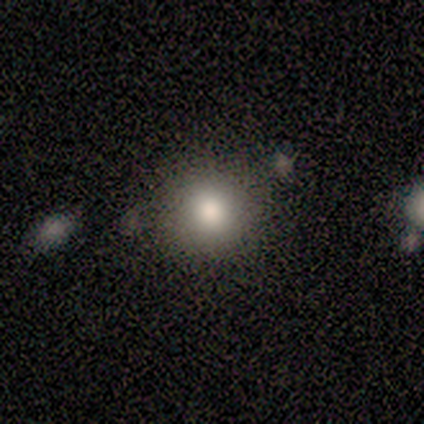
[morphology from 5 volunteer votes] A smooth galaxy with no disk features (100%) that is round (100%). Merging: none (100%).